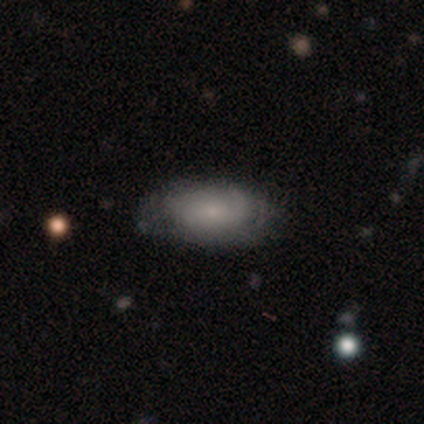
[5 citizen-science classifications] Morphology: type=smooth (40%, tied with featured or disk); roundness=in between (100%); merging=minor disturbance (50%).